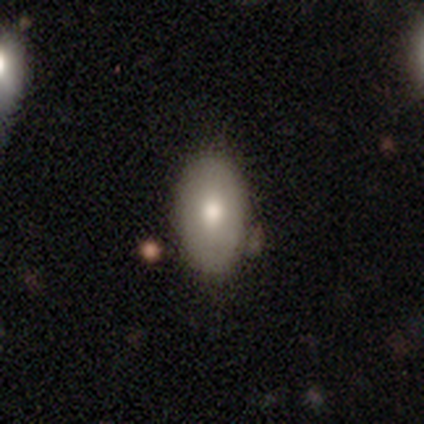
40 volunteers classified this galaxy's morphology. A smooth galaxy with no disk features (72%) that is in between round and cigar-shaped (93%). Merging: none (81%).